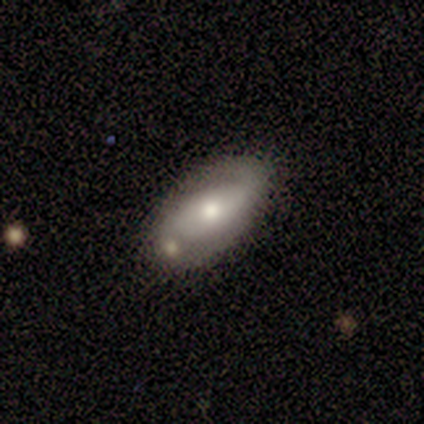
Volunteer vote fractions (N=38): Q: Smooth or featured?
A: featured or disk (58%); runner-up: smooth (37%)
Q: Edge-on disk?
A: no (100%)
Q: Bar?
A: no (73%); runner-up: strong (18%)
Q: Spiral arms?
A: yes (68%); runner-up: no (32%)
Q: Spiral winding?
A: loose (53%); runner-up: medium (33%)
Q: Spiral arm count?
A: 2 (87%); runner-up: 1 (7%)
Q: Bulge size?
A: moderate (50%); runner-up: small (32%)
Q: Merging?
A: none (72%); runner-up: minor disturbance (17%)